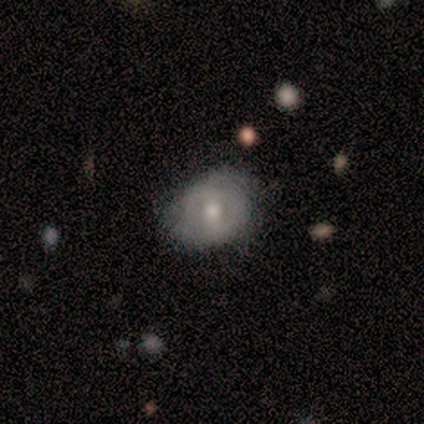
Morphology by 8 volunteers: type=smooth (62%); roundness=round (60%); merging=none (62%).